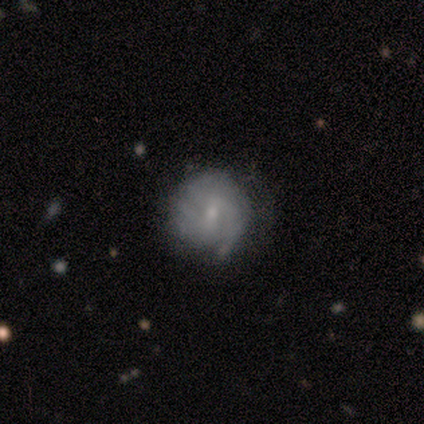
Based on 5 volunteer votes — featured or disk 60%, smooth 40%, star or artifact 0%. Down the decision tree: edge-on disk — no (100%); bar — weak (100%); spiral arms — yes (100%); spiral arm count — 2 (67%); spiral winding — tight (67%); bulge size — moderate (67%); merging — none (60%).